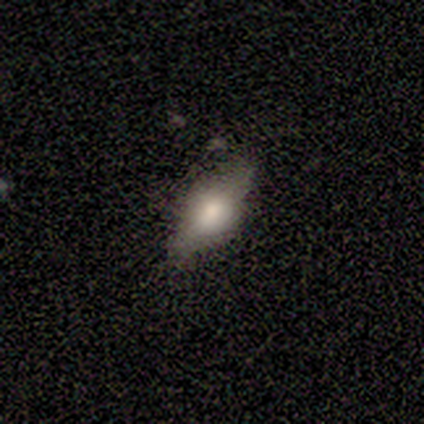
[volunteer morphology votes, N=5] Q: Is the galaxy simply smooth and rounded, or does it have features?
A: smooth — 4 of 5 (80%).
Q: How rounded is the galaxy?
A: cigar-shaped — 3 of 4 (75%).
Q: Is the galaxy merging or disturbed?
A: none — 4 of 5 (80%).